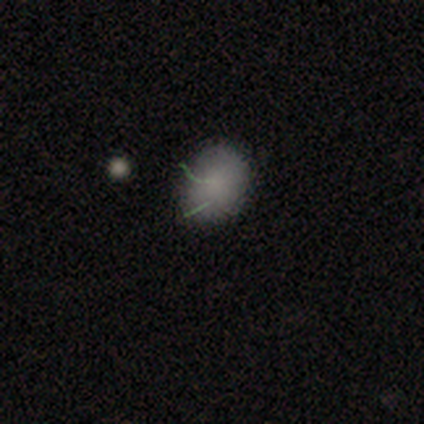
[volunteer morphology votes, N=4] Smooth or featured? 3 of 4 (75%) said smooth. How rounded? 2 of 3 (67%) said in between. Merging? 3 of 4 (75%) said none.